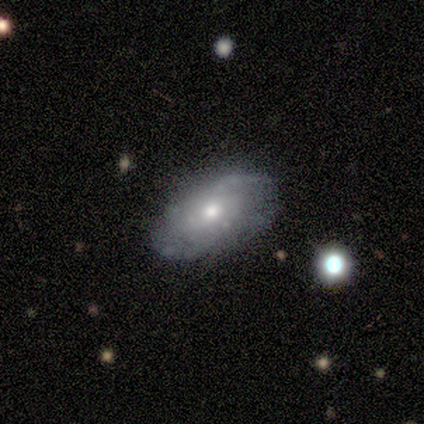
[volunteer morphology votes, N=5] Smooth or featured?
  - featured or disk: 80% *
  - smooth: 20%
  - star or artifact: 0%
Edge-on disk?
  - no: 100% *
  - yes: 0%
Bar?
  - no: 100% *
  - strong: 0%
  - weak: 0%
Spiral arms?
  - yes: 100% *
  - no: 0%
Spiral winding?
  - tight: 50% *
  - medium: 25%
  - loose: 25%
Spiral arm count?
  - 2: 50% * (tied)
  - can't tell: 50% * (tied)
  - 1: 0%
  - 3: 0%
  - 4: 0%
  - more than 4: 0%
Bulge size?
  - moderate: 75% *
  - small: 25%
  - dominant: 0%
  - large: 0%
  - none: 0%
Merging?
  - none: 80% *
  - minor disturbance: 20%
  - major disturbance: 0%
  - merger: 0%